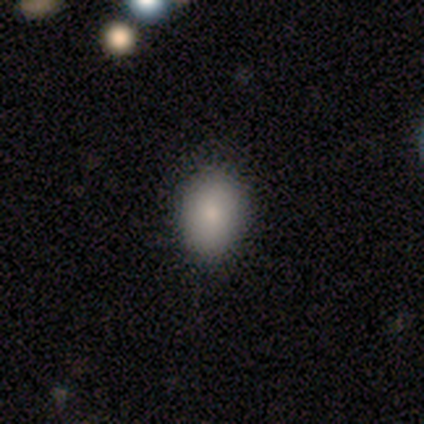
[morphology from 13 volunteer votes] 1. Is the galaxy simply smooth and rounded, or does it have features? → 85% smooth, 15% star or artifact, 0% featured or disk.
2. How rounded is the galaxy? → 73% in between, 18% round, 9% cigar-shaped.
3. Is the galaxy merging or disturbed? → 91% none, 9% minor disturbance, 0% major disturbance, 0% merger.